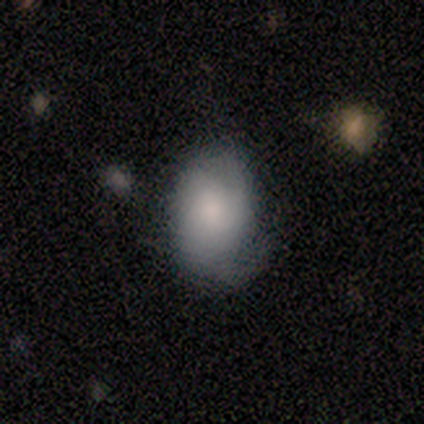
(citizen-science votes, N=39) Morphology: type=smooth (67%); roundness=in between (77%); merging=none (39%, tied with minor disturbance).